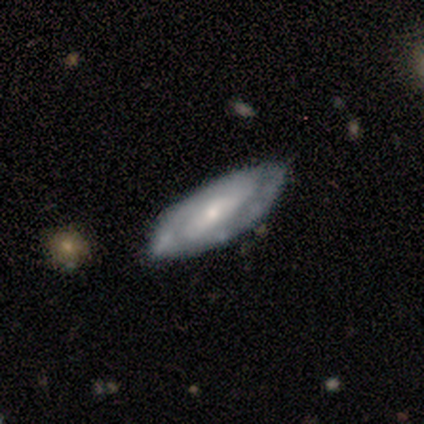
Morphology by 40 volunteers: This is likely a featured or disk galaxy (60%). It is clearly not viewed edge-on (92%). Bar: possibly weak (45%). Spiral arm pattern: clearly yes (91%). Spiral arm count: likely 2 (60%). Spiral winding: marginally medium (40%). Central bulge: possibly moderate (59%). Merging: likely none (76%).